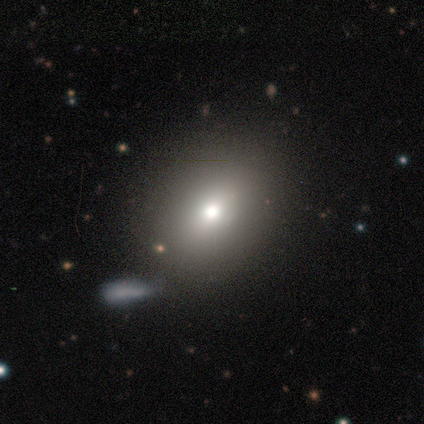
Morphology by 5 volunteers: Smooth or featured: smooth — 60% (star or artifact — 40%)
How rounded: round — 100%
Merging: none — 67% (minor disturbance — 33%)